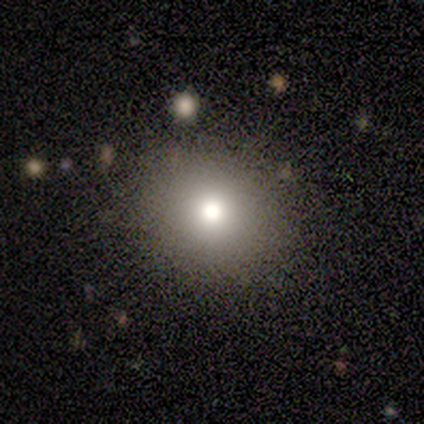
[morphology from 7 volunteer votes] This appears to be a smooth galaxy with no disk features (71%) that is round (80%). Merging: none (86%).